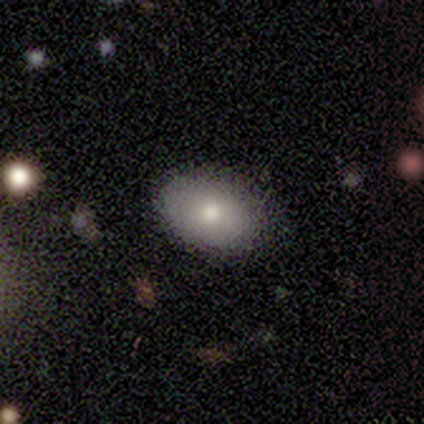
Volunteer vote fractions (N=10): A smooth galaxy with no disk features (60%) that is in between round and cigar-shaped (83%).

Vote fractions:
- Smooth or featured? smooth: 60% / featured or disk: 40% / star or artifact: 0%
- How rounded? in between: 83% / round: 17% / cigar-shaped: 0%
- Merging? none: 100% / minor disturbance: 0% / major disturbance: 0% / merger: 0%